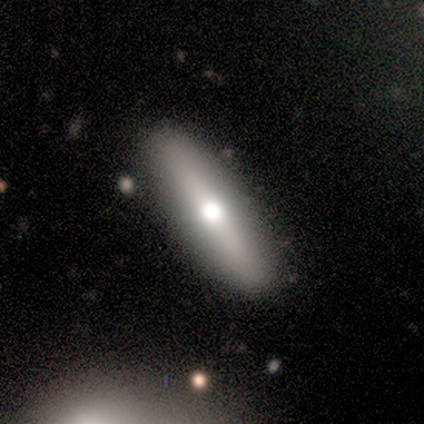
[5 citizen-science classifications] Q: Smooth or featured?
A: smooth (60%); runner-up: featured or disk (40%)
Q: How rounded?
A: cigar-shaped (67%); runner-up: in between (33%)
Q: Merging?
A: none (80%); runner-up: merger (20%)